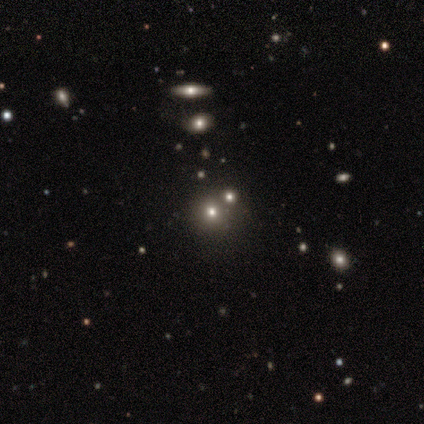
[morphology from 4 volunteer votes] Smooth or featured? 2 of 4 (50%) said smooth. How rounded? 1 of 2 (50%, tied with in between) said round. Merging? 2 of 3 (67%) said none.